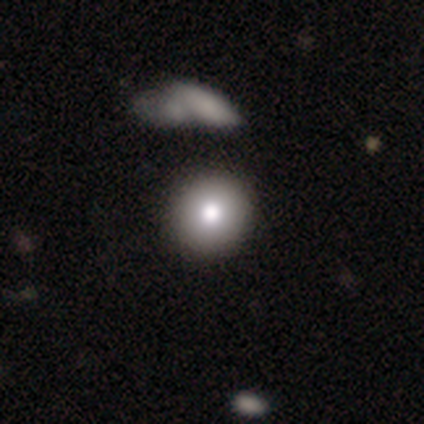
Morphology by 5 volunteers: Smooth or featured? 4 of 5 (80%) said smooth. How rounded? 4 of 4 (100%) said round. Merging? 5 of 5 (100%) said none.